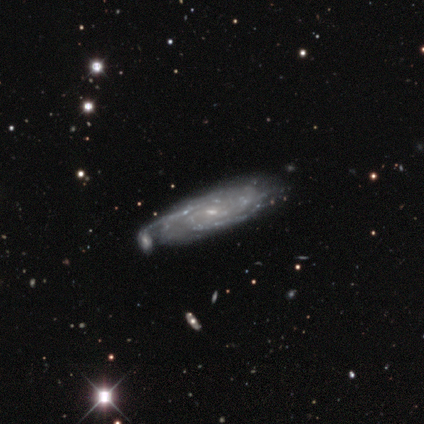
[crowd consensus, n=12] Q: Smooth or featured?
A: featured or disk (100%)
Q: Edge-on disk?
A: no (67%); runner-up: yes (33%)
Q: Bar?
A: no (50%); runner-up: weak (38%)
Q: Spiral arms?
A: yes (75%); runner-up: no (25%)
Q: Spiral winding?
A: tight (83%); runner-up: medium (17%)
Q: Spiral arm count?
A: 3 (33%); tied with: can't tell (33%)
Q: Bulge size?
A: small (75%); runner-up: moderate (25%)
Q: Merging?
A: none (50%); runner-up: minor disturbance (42%)